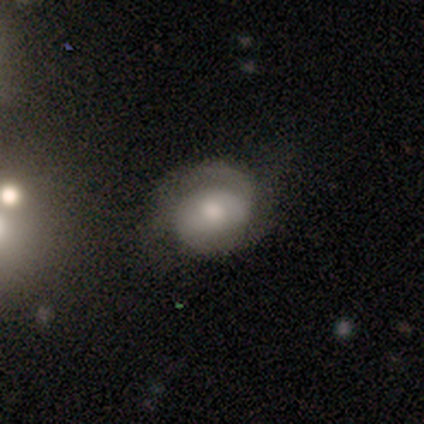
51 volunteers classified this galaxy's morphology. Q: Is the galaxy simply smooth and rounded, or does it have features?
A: featured or disk — 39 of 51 (76%).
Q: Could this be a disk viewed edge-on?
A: no — 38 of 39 (97%).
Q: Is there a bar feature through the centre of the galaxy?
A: no — 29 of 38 (76%).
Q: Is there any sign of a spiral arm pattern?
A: yes — 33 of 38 (87%).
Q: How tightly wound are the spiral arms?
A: tight — 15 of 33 (45%).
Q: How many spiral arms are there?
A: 2 — 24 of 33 (73%).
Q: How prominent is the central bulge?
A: moderate — 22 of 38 (58%).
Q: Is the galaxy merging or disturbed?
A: none — 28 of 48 (58%).